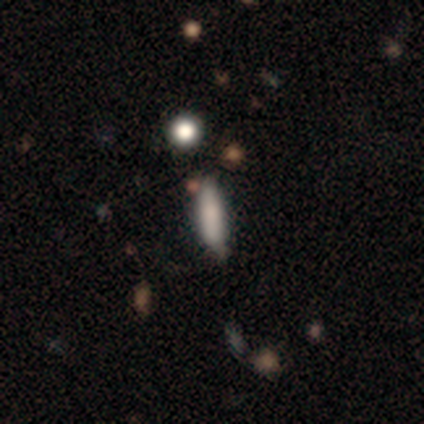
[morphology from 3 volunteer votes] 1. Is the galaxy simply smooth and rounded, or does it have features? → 100% smooth, 0% featured or disk, 0% star or artifact.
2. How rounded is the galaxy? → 67% cigar-shaped, 33% in between, 0% round.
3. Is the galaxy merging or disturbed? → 67% none, 33% minor disturbance, 0% major disturbance, 0% merger.